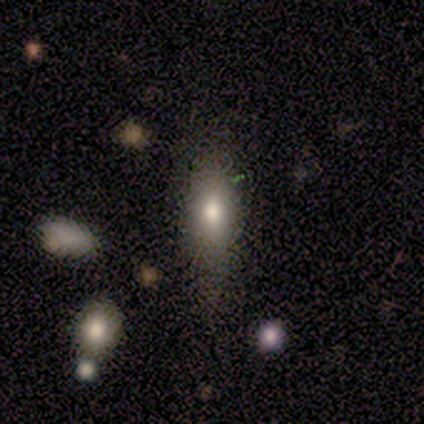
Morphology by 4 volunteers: Smooth or featured: smooth — 75% (featured or disk — 25%)
How rounded: in between — 67% (cigar-shaped — 33%)
Merging: none — 50% (minor disturbance — 25%)